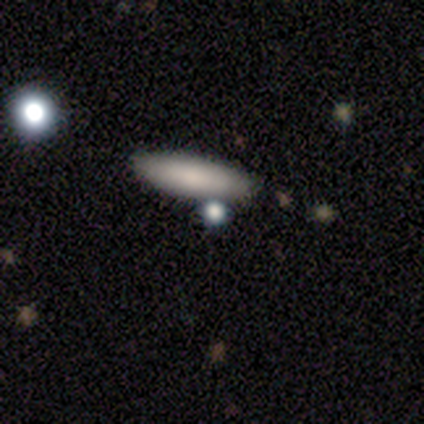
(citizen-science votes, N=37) Smooth or featured? 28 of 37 (76%) said smooth. How rounded? 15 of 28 (54%) said cigar-shaped. Merging? 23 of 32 (72%) said none.